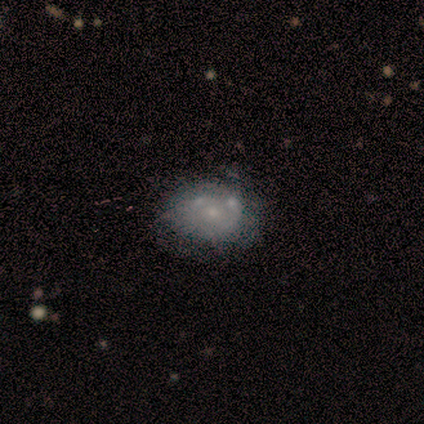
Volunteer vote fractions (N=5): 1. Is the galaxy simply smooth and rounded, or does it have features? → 80% featured or disk, 20% smooth, 0% star or artifact.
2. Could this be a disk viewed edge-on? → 100% no, 0% yes.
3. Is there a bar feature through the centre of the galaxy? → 100% no, 0% strong, 0% weak.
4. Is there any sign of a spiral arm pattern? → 100% no, 0% yes.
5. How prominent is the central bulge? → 100% small, 0% dominant, 0% large, 0% moderate, 0% none.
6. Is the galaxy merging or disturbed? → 40% none (tied), 40% minor disturbance (tied), 20% merger, 0% major disturbance.